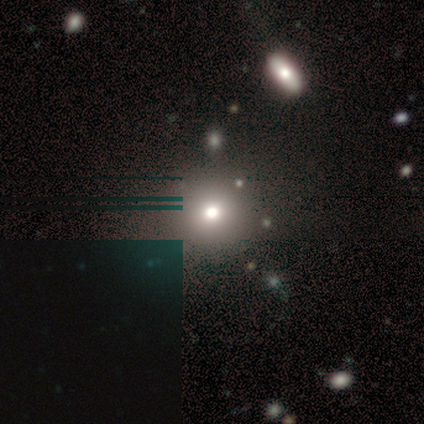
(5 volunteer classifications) Volunteers were most divided on "smooth or featured": star or artifact: 60%, featured or disk: 40%, smooth: 0%.